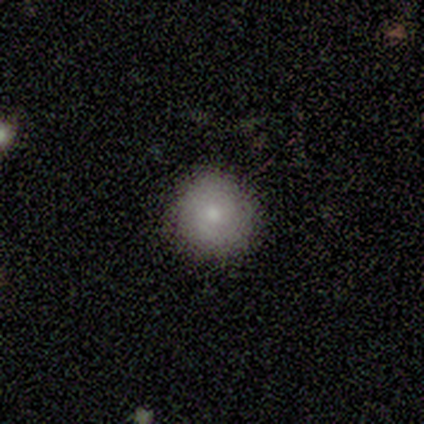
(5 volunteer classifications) This appears to be a smooth galaxy with no disk features (80%) that is round (100%). Merging: none (80%).